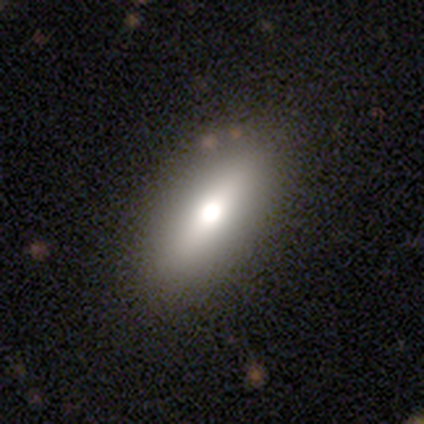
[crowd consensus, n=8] Q: Smooth or featured?
A: smooth (50%); tied with: featured or disk (50%)
Q: How rounded?
A: in between (100%)
Q: Merging?
A: none (100%)